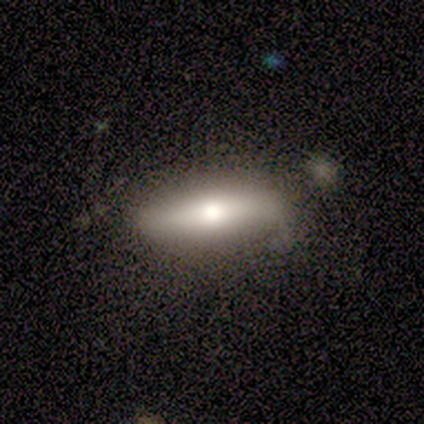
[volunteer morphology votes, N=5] Overall: featured or disk (60%; smooth 40%). Edge-on disk: yes (100%). Edge-on bulge: rounded (100%). Merging: none (60%; minor disturbance 40%).